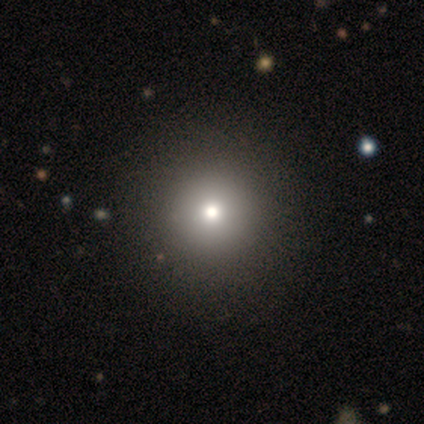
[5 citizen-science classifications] smooth-or-featured: smooth: 80% | star or artifact: 20% | featured or disk: 0%
  how-rounded: round: 100% | in between: 0% | cigar-shaped: 0%
  merging: none: 100% | minor disturbance: 0% | major disturbance: 0% | merger: 0%